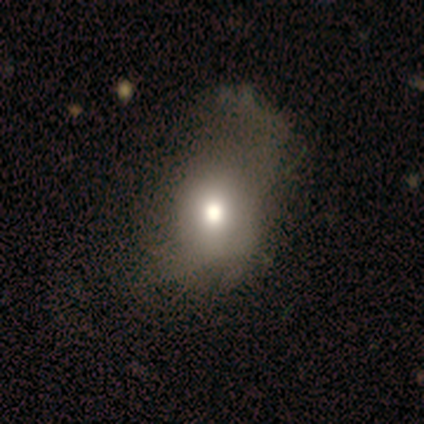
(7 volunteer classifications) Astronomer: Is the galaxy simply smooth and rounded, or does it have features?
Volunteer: smooth — 71%.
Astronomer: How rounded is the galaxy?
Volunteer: round — 80%.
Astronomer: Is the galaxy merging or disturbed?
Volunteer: major disturbance — 67%.